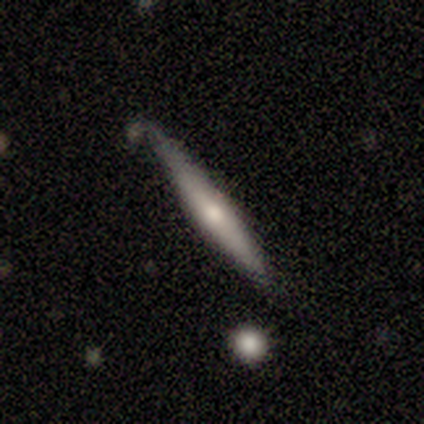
Smooth or featured? smooth (50%)
How rounded? cigar-shaped (67%)
Merging? none (60%)